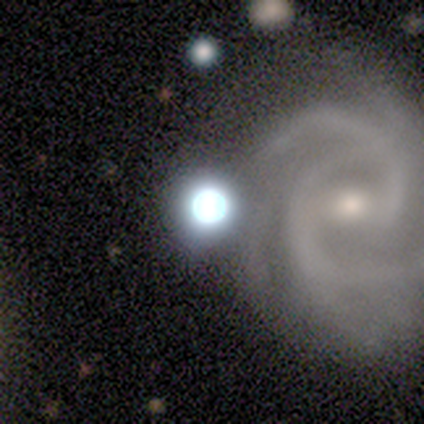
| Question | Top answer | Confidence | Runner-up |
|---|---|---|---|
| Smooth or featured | featured or disk | 62% | star or artifact (38%) |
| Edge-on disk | no | 100% | — |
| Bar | no | 60% | strong (20%) |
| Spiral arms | yes | 80% | no (20%) |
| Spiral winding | tight | 50% | tied: medium (50%) |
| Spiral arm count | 2 | 75% | 4 (25%) |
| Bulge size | dominant | 40% | tied: small (40%) |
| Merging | none | 60% | minor disturbance (40%) |